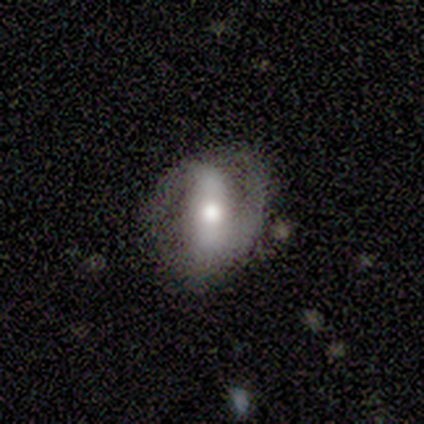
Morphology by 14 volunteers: featured or disk 50%, smooth 43%, star or artifact 7%. Down the decision tree: edge-on disk — no (100%); bar — strong (57%); spiral arms — yes (86%); spiral arm count — 2 (100%); spiral winding — tight (50%, tied with medium); bulge size — moderate (57%); merging — none (46%).